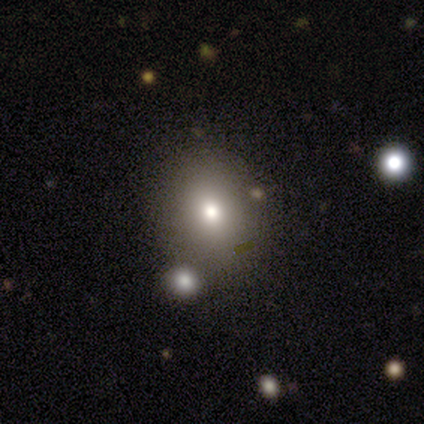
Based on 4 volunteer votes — smooth_or_featured: smooth (p=0.75) [alt: star or artifact p=0.25]
how_rounded: round (p=0.67) [alt: in between p=0.33]
merging: none (p=1.00)